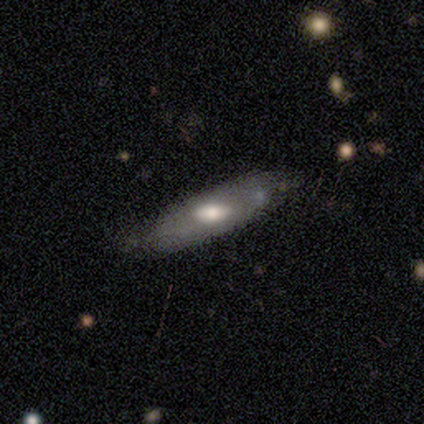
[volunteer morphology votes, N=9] Smooth or featured? smooth (78%)
How rounded? cigar-shaped (86%)
Merging? none (78%)